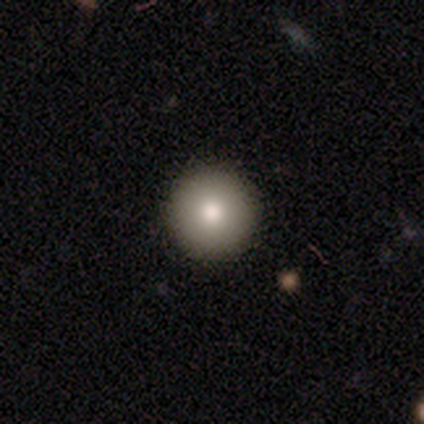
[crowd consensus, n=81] Overall: smooth (79%). How rounded: round (95%). Merging: none (97%).